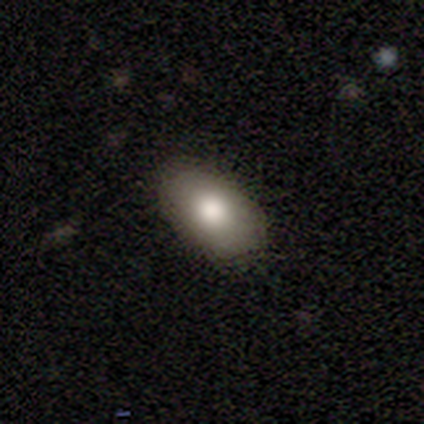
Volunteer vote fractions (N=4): A smooth galaxy with no disk features (50%, tied with star or artifact) that is in between round and cigar-shaped (100%).

Vote fractions:
- Smooth or featured? smooth: 50% (tied) / star or artifact: 50% (tied) / featured or disk: 0%
- How rounded? in between: 100% / round: 0% / cigar-shaped: 0%
- Merging? none: 100% / minor disturbance: 0% / major disturbance: 0% / merger: 0%